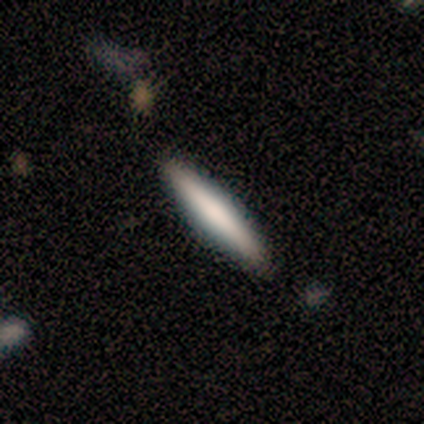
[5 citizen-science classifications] Q: Smooth or featured?
A: smooth (80%); runner-up: featured or disk (20%)
Q: How rounded?
A: in between (50%); tied with: cigar-shaped (50%)
Q: Merging?
A: none (80%); runner-up: major disturbance (20%)